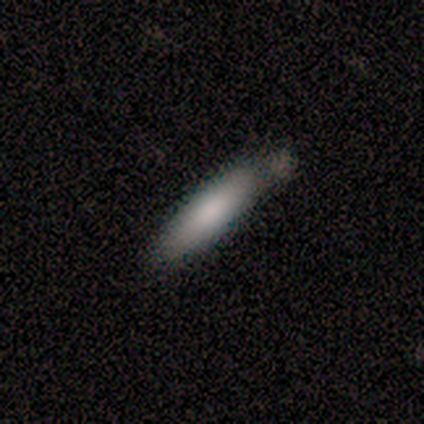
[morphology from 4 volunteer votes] smooth 100%, featured or disk 0%, star or artifact 0%. Down the decision tree: how rounded — cigar-shaped (75%); merging — none (75%).